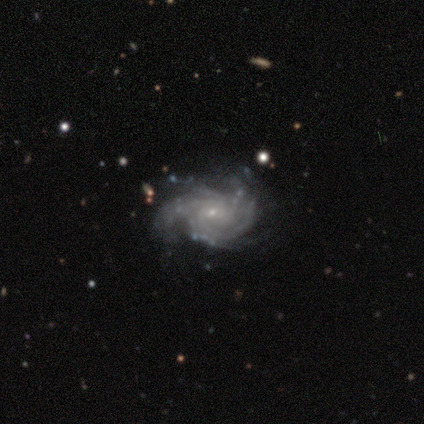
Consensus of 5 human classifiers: A featured or disk galaxy (100%) with no bar (60%), 3 (40%, tied with can't tell) tight (40%, tied with loose) spiral arms (100%) and a small central bulge (60%). Merging: none (40%, tied with minor disturbance).